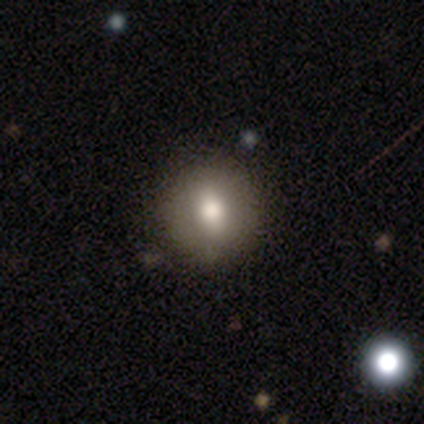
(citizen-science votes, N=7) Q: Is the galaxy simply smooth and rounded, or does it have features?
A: smooth — 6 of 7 (86%).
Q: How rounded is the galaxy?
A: round — 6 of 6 (100%).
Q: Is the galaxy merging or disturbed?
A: none — 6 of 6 (100%).